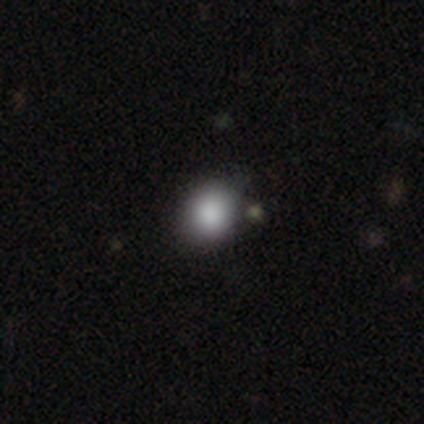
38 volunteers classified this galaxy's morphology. Smooth or featured? 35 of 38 (92%) said smooth. How rounded? 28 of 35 (80%) said round. Merging? 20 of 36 (56%) said none.